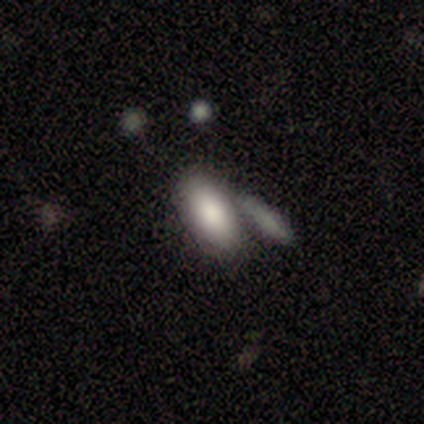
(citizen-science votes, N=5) Smooth or featured? 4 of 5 (80%) said smooth. How rounded? 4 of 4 (100%) said in between. Merging? 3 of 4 (75%) said none.